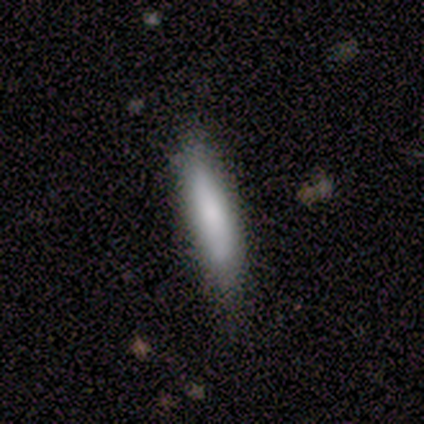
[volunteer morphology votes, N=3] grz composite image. It shows a smooth galaxy with no disk features (67%) that is in between round and cigar-shaped (50%, tied with cigar-shaped). Merging: none (100%).